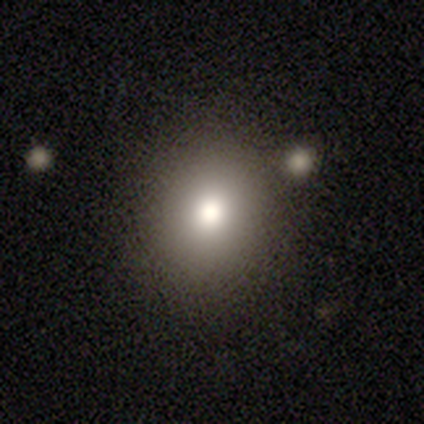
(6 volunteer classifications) Overall: smooth (83%). How rounded: round (80%). Merging: none (100%).